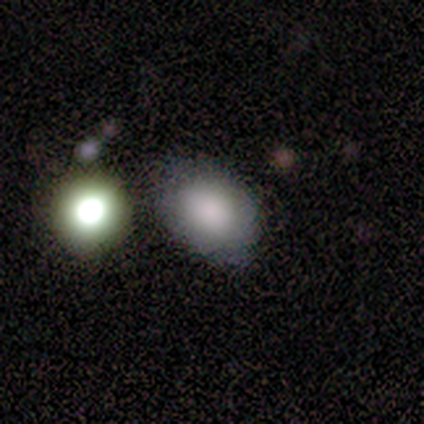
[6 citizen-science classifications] Smooth or featured? smooth (83%)
How rounded? round (60%)
Merging? none (83%)